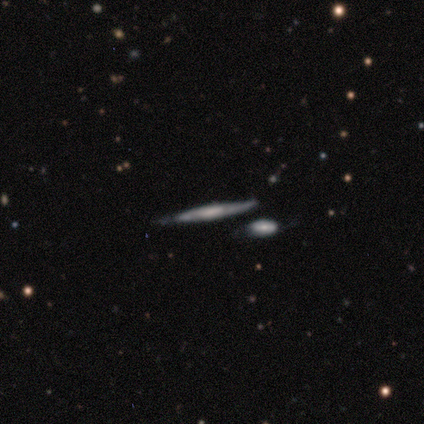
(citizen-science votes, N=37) smooth_or_featured: featured or disk (p=0.86) [alt: smooth p=0.14]
disk_edge_on: yes (p=0.88) [alt: no p=0.12]
edge_on_bulge: rounded (p=0.39) [alt: none p=0.32]
merging: none (p=0.70) [alt: minor disturbance p=0.22]